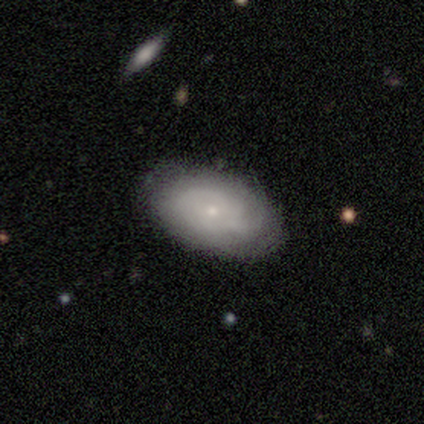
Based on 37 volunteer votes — Smooth or featured? 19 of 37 (51%) said featured or disk. Edge-on disk? 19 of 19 (100%) said no. Bar? 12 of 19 (63%) said no. Spiral arms? 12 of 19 (63%) said yes. Spiral winding? 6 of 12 (50%) said tight. Spiral arm count? 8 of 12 (67%) said can't tell. Bulge size? 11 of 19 (58%) said small. Merging? 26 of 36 (72%) said none.